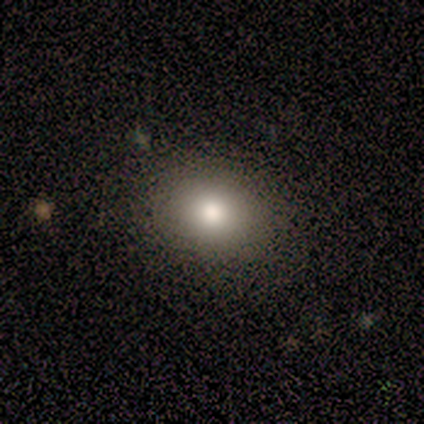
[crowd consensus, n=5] Smooth or featured? smooth (100%)
How rounded? in between (60%)
Merging? none (100%)